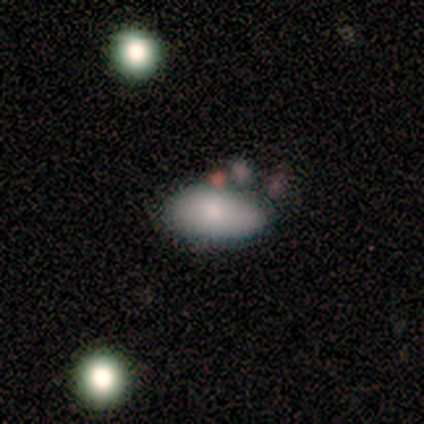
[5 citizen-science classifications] Overall: smooth (60%; featured or disk 40%). How rounded: in between (100%). Merging: none (40%, tied with merger).